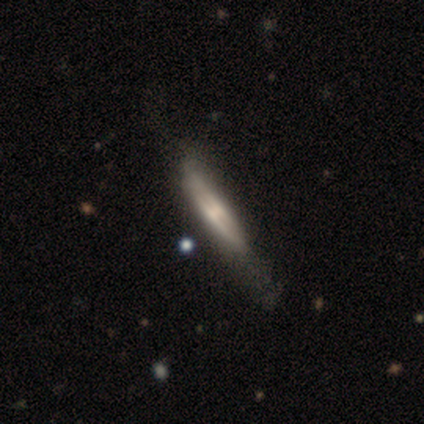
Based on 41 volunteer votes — Q: Smooth or featured?
A: featured or disk (80%); runner-up: smooth (17%)
Q: Edge-on disk?
A: yes (88%); runner-up: no (12%)
Q: Edge-on bulge?
A: rounded (48%); runner-up: none (34%)
Q: Merging?
A: none (32%); tied with: minor disturbance (32%)